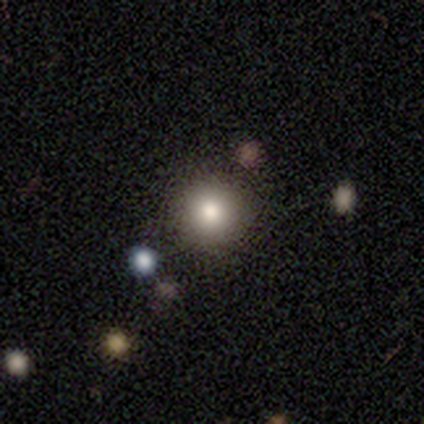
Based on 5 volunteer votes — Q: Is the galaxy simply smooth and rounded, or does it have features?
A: smooth — 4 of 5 (80%).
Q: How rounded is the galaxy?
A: round — 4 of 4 (100%).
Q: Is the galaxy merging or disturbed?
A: none — 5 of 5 (100%).